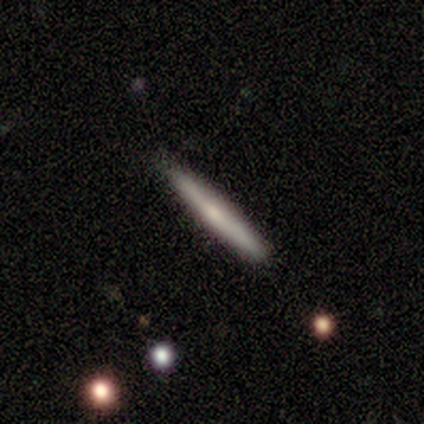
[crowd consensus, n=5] A smooth galaxy with no disk features (60%) that is cigar-shaped (100%).

Vote fractions:
- Smooth or featured? smooth: 60% / featured or disk: 40% / star or artifact: 0%
- How rounded? cigar-shaped: 100% / round: 0% / in between: 0%
- Merging? none: 100% / minor disturbance: 0% / major disturbance: 0% / merger: 0%